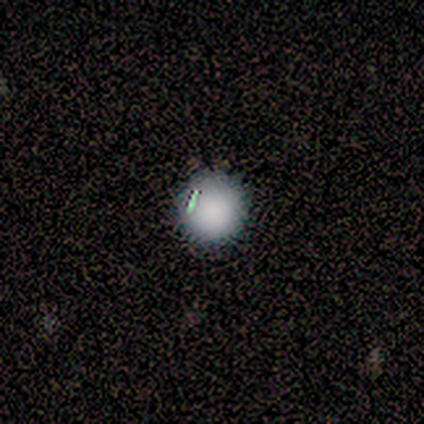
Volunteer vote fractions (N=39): Volunteers were most divided on "smooth or featured": smooth: 69%, featured or disk: 15%, star or artifact: 15%. More confident: how rounded — round (100%); merging — none (91%).